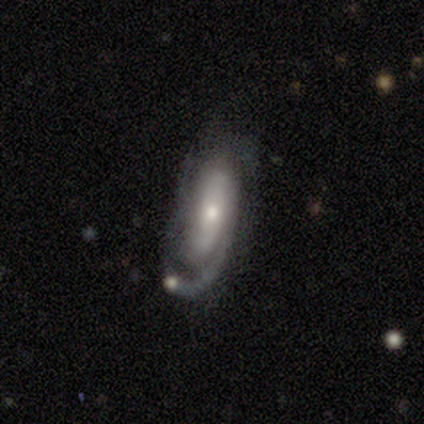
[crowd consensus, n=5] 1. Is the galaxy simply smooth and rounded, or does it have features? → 100% featured or disk, 0% smooth, 0% star or artifact.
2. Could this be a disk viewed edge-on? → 100% no, 0% yes.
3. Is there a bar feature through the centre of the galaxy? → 80% no, 20% strong, 0% weak.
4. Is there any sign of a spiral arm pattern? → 80% yes, 20% no.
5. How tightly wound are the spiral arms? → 100% tight, 0% medium, 0% loose.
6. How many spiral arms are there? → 50% 1, 25% 3, 25% can't tell, 0% 2, 0% 4, 0% more than 4.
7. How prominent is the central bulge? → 60% moderate, 40% small, 0% dominant, 0% large, 0% none.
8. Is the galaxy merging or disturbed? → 40% none (tied), 40% minor disturbance (tied), 20% merger, 0% major disturbance.